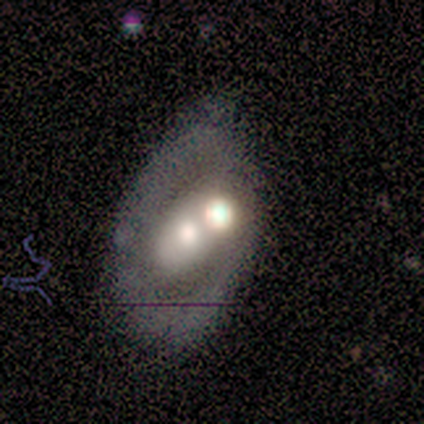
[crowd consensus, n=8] featured or disk 75%, smooth 25%, star or artifact 0%. Down the decision tree: edge-on disk — no (83%); bar — no (100%); spiral arms — no (80%); bulge size — moderate (60%); merging — merger (62%).